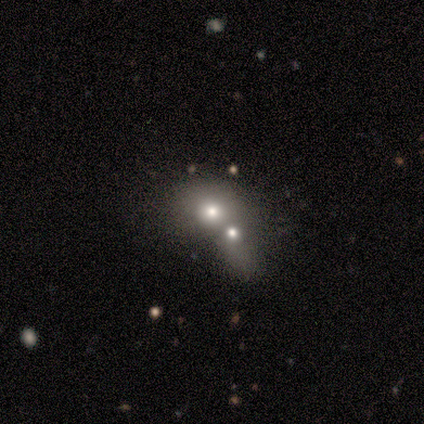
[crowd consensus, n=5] Volunteers were most divided on "smooth or featured": smooth: 60%, featured or disk: 40%, star or artifact: 0%. More confident: merging — merger (100%); how rounded — in between (67%).